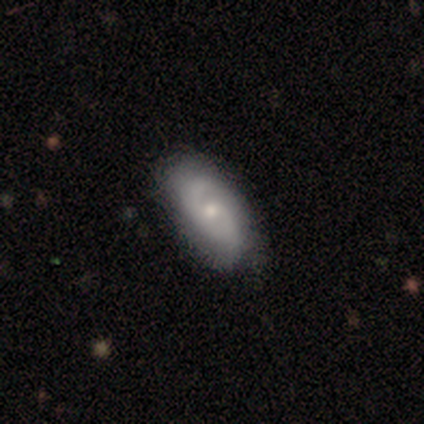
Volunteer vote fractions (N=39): Volunteers were most divided on "spiral winding": medium: 57%, tight: 35%, loose: 9%. More confident: edge-on disk — no (100%); spiral arms — yes (82%); merging — none (82%); smooth or featured — featured or disk (72%); spiral arm count — 2 (70%); bar — no (64%); bulge size — small (61%).